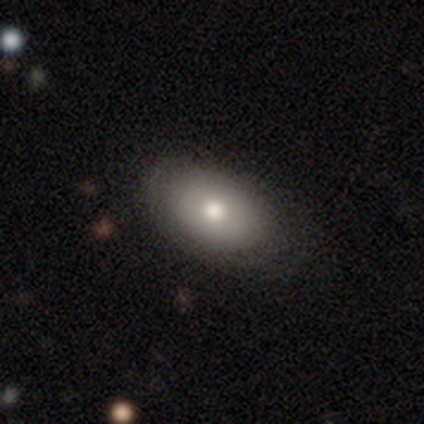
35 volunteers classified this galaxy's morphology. A smooth galaxy with no disk features (71%) that is in between round and cigar-shaped (72%). Merging: none (69%).